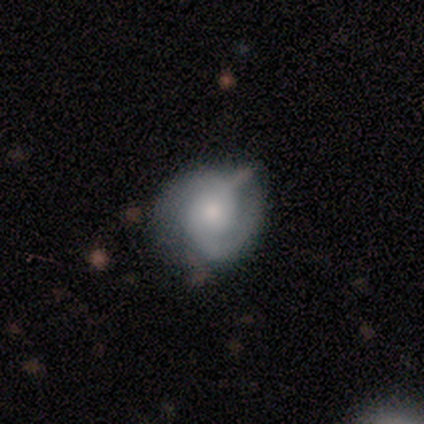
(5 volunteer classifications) A featured or disk galaxy (80%) with no bar (100%), 2 (100%) medium (100%) spiral arms (100%) and a moderate central bulge (75%). Merging: none (60%).